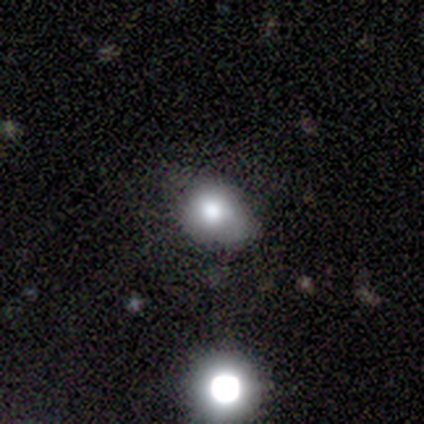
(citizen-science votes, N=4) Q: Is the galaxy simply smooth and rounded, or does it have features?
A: featured or disk — 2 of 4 (50%).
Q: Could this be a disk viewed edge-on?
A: no — 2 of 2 (100%).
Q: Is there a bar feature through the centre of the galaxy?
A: no — 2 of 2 (100%).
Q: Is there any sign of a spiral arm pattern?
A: no — 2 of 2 (100%).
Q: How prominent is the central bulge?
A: moderate — 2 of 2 (100%).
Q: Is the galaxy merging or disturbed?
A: none — 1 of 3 (33%, tied with minor disturbance and merger).